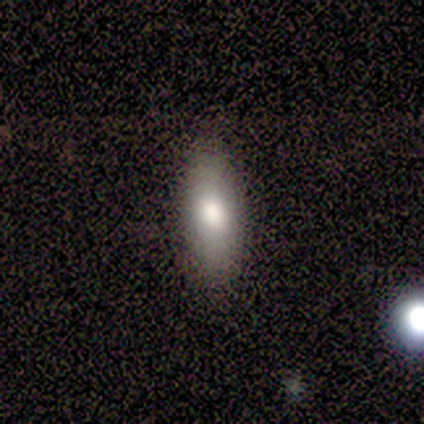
Smooth or featured? 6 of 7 (86%) said smooth. How rounded? 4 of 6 (67%) said in between. Merging? 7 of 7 (100%) said none.